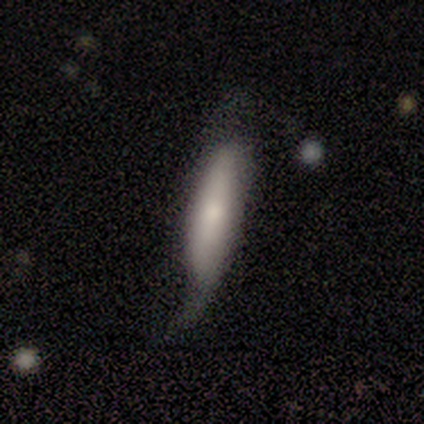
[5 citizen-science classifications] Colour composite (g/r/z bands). It shows a smooth galaxy with no disk features (40%, tied with featured or disk) that is cigar-shaped (100%). Merging: minor disturbance (50%, tied with major disturbance).